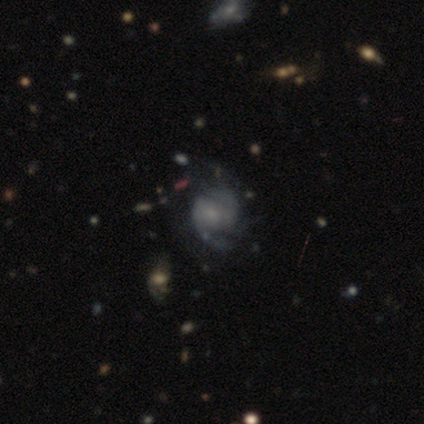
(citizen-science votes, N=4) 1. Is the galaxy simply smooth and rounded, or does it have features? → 50% star or artifact, 25% smooth, 25% featured or disk.